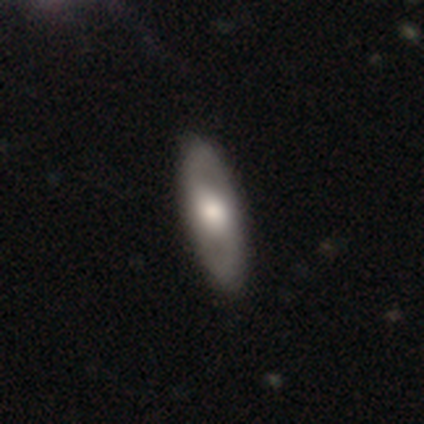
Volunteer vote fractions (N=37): A featured or disk galaxy (57%) with no bar (59%), 2 (100%) medium (55%) spiral arms (65%) and a moderate central bulge (65%). Merging: none (69%).